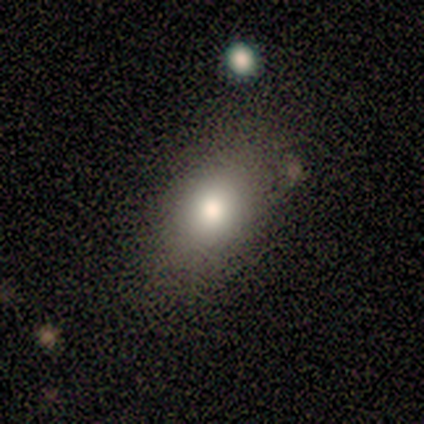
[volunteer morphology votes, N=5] This appears to be a smooth galaxy with no disk features (100%) that is in between round and cigar-shaped (100%). Merging: none (100%).